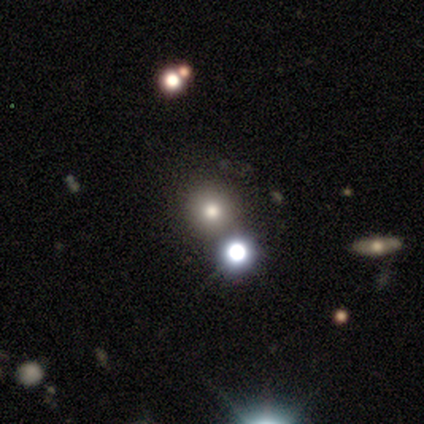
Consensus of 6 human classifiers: smooth_or_featured: smooth (p=0.83) [alt: featured or disk p=0.17]
how_rounded: round (p=0.80) [alt: in between p=0.20]
merging: none (p=0.83) [alt: minor disturbance p=0.17]